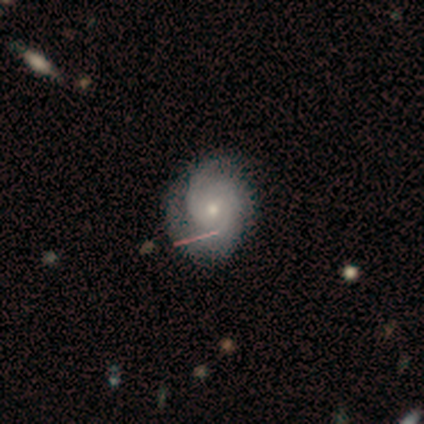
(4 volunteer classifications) A featured or disk galaxy (100%) with no bar (100%), 2 (33%, tied with 3 and can't tell) tight (67%) spiral arms (75%) and a small central bulge (75%). Merging: none (75%).